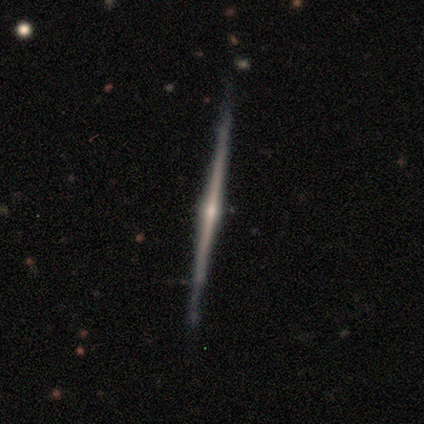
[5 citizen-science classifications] Morphology: type=featured or disk (80%); edge-on=yes (100%); edge-on bulge=rounded (75%); merging=none (100%).